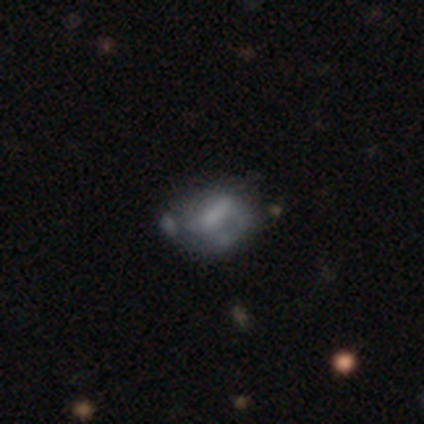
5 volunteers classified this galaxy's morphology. A featured or disk galaxy (80%) with a strong bar (50%, tied with weak), 1 (50%, tied with 2) tight (50%, tied with loose) spiral arms (50%, tied with no) and no central bulge (50%). Merging: major disturbance (40%, tied with merger).